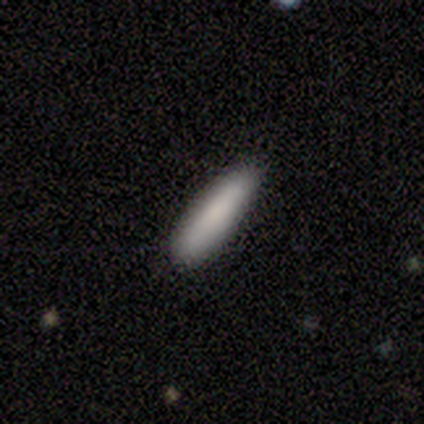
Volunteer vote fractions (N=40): This is clearly a smooth galaxy (85%). How rounded: likely cigar-shaped (76%). Merging: clearly none (84%).